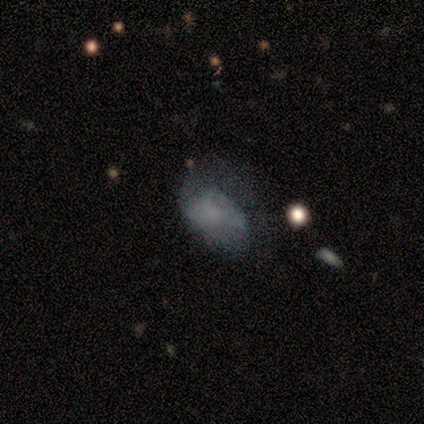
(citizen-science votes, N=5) Volunteers were most divided on "smooth or featured" (2-way tie): smooth: 40%, featured or disk: 40%, star or artifact: 20%; "merging" (2-way tie): minor disturbance: 50%, major disturbance: 50%, none: 0%, merger: 0%. More confident: how rounded — in between (100%).